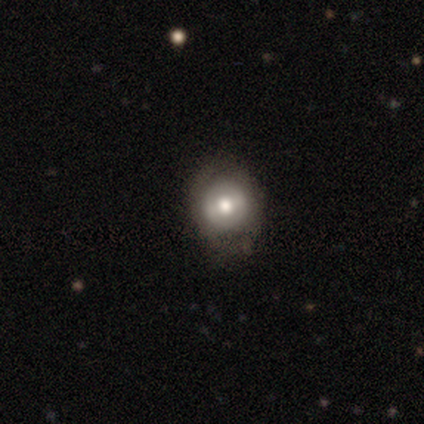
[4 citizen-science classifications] Morphology: type=smooth (50%); roundness=round (100%); merging=none (100%).